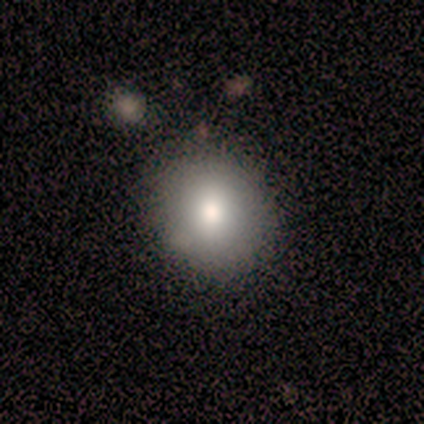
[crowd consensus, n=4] Volunteers were most divided on "smooth or featured": smooth: 75%, star or artifact: 25%, featured or disk: 0%. More confident: how rounded — round (100%); merging — none (100%).